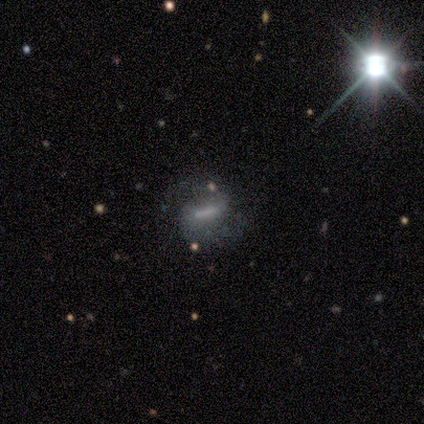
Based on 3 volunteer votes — Q: Smooth or featured?
A: featured or disk (67%); runner-up: star or artifact (33%)
Q: Edge-on disk?
A: no (100%)
Q: Bar?
A: strong (50%); tied with: no (50%)
Q: Spiral arms?
A: yes (50%); tied with: no (50%)
Q: Spiral winding?
A: medium (100%)
Q: Spiral arm count?
A: 2 (100%)
Q: Bulge size?
A: moderate (50%); tied with: none (50%)
Q: Merging?
A: none (50%); tied with: major disturbance (50%)